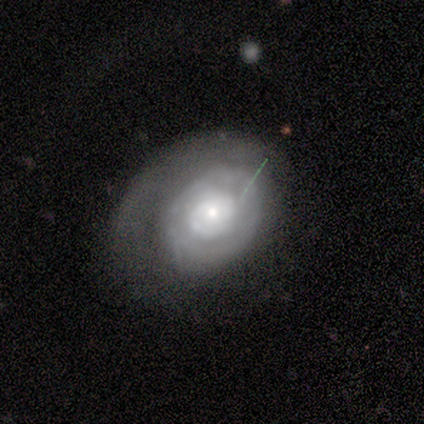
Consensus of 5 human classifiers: Smooth or featured? featured or disk (80%)
Edge-on disk? no (75%)
Bar? no (100%)
Spiral arms? no (67%)
Bulge size? moderate (67%)
Merging? none (80%)